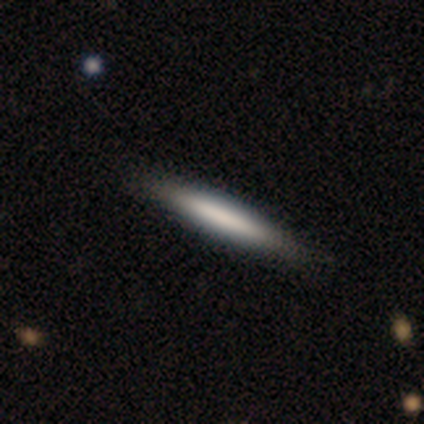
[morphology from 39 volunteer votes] smooth_or_featured: smooth (p=0.59) [alt: featured or disk p=0.38]
how_rounded: cigar-shaped (p=1.00)
merging: none (p=0.66) [alt: minor disturbance p=0.05]